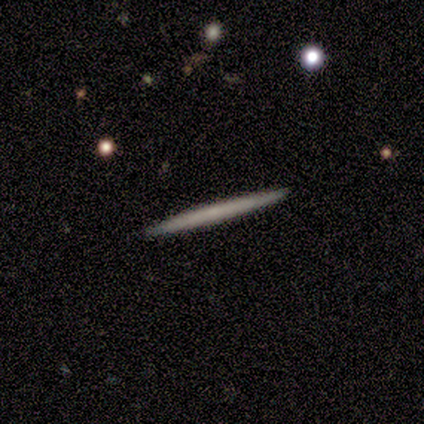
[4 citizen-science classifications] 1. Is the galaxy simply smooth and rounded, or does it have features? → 75% smooth, 25% featured or disk, 0% star or artifact.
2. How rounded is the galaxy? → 100% cigar-shaped, 0% round, 0% in between.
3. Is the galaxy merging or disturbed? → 100% none, 0% minor disturbance, 0% major disturbance, 0% merger.